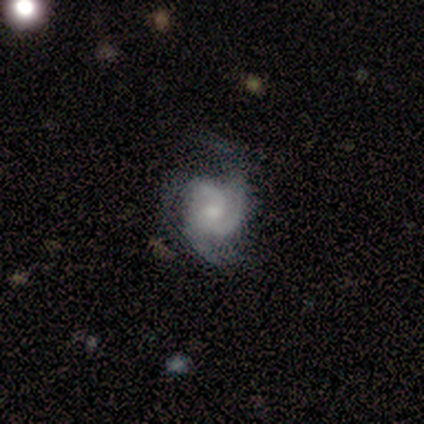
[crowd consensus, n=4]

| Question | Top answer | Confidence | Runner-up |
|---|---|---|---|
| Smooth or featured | featured or disk | 75% | smooth (25%) |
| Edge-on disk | no | 100% | — |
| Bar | no | 67% | weak (33%) |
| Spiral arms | yes | 100% | — |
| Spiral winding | tight | 33% | tied: medium (33%), loose (33%) |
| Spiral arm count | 2 | 67% | 3 (33%) |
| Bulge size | large | 33% | tied: moderate (33%), small (33%) |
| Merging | none | 50% | minor disturbance (25%) |